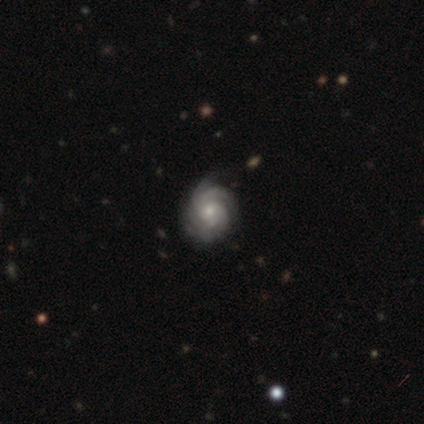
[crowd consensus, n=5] smooth_or_featured: featured or disk (p=0.80) [alt: smooth p=0.20]
disk_edge_on: no (p=1.00)
bar: weak (p=0.50) [tied with: no p=0.50]
has_spiral_arms: yes (p=1.00)
spiral_winding: tight (p=0.50) [tied with: medium p=0.50]
spiral_arm_count: 3 (p=0.75) [alt: 4 p=0.25]
bulge_size: small (p=0.75) [alt: moderate p=0.25]
merging: none (p=0.80) [alt: minor disturbance p=0.20]